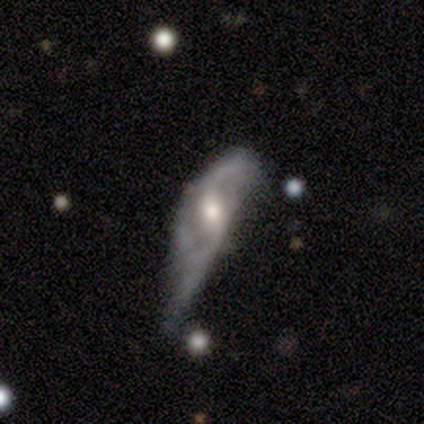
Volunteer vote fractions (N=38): Smooth or featured? featured or disk (82%)
Edge-on disk? no (84%)
Bar? weak (46%)
Spiral arms? yes (73%)
Spiral winding? medium (47%)
Spiral arm count? 2 (79%)
Bulge size? moderate (73%)
Merging? major disturbance (54%)